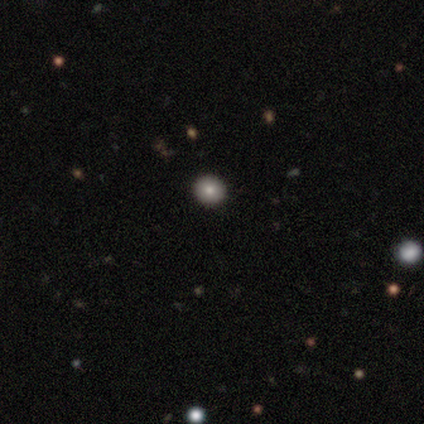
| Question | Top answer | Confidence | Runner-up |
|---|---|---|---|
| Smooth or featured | smooth | 50% | star or artifact (33%) |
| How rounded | round | 100% | — |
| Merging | none | 100% | — |